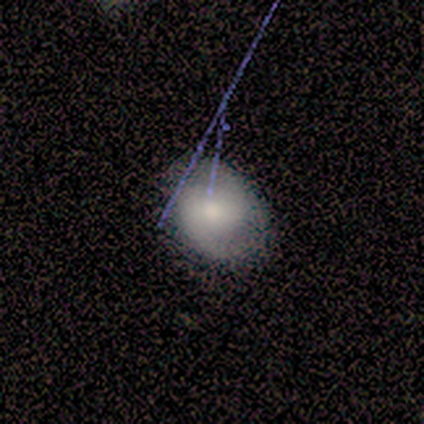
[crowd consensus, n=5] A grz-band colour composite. It shows a featured or disk galaxy (60%) with a strong bar (33%, tied with weak and no), 2 (67%) medium (67%) spiral arms (100%) and a moderate central bulge (67%). Merging: none (80%).